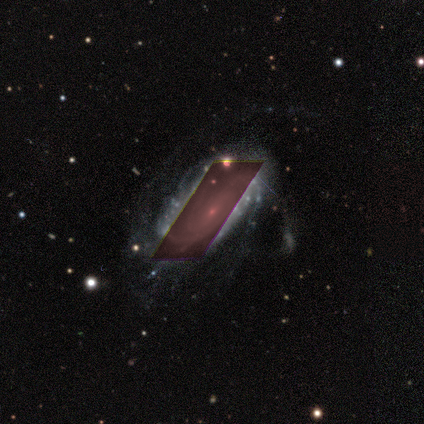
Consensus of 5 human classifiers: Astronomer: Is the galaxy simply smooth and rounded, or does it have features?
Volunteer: featured or disk — 80%.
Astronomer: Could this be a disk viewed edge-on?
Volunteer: no — 100%.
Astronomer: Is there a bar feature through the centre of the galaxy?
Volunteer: no — 75%.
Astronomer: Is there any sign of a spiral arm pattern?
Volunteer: yes — 100%.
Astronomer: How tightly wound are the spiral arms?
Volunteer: tight — 100%.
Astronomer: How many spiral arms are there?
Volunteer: can't tell — 50%.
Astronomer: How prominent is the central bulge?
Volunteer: small — 100%.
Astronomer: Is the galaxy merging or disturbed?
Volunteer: minor disturbance — 50%.